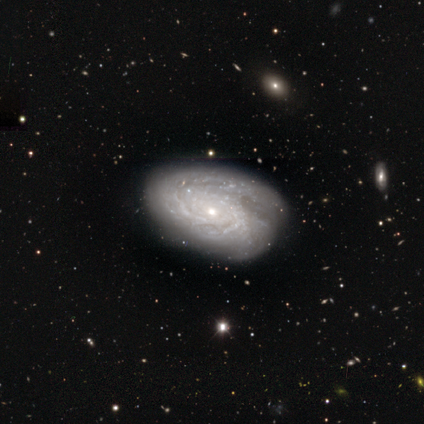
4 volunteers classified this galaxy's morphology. Overall: featured or disk (100%). Edge-on disk: no (100%). Bar: no (75%). Spiral arms: yes (100%). Spiral arm count: can't tell (75%). Spiral winding: tight (75%). Bulge size: small (100%). Merging: none (75%).